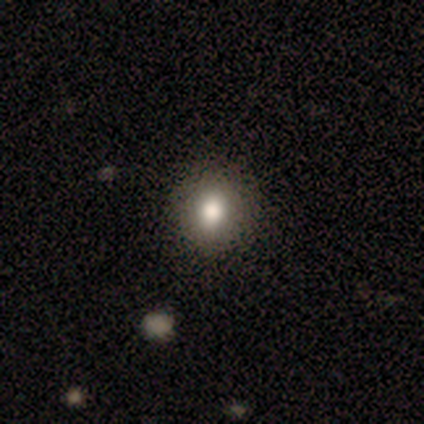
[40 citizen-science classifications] smooth_or_featured: smooth (p=0.80) [alt: featured or disk p=0.17]
how_rounded: round (p=0.75) [alt: in between p=0.25]
merging: none (p=0.64) [alt: minor disturbance p=0.03]